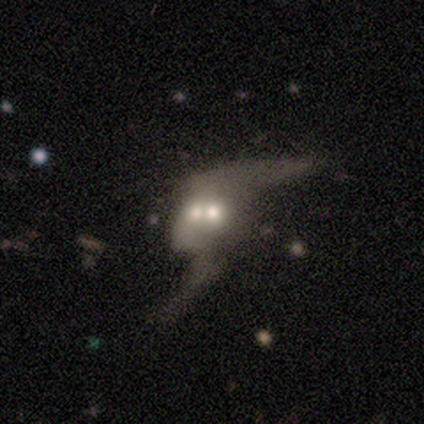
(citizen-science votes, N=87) Overall: featured or disk (67%; smooth 31%). Edge-on disk: no (95%). Bar: no (78%). Spiral arms: yes (55%; no 45%). Spiral arm count: 2 (87%). Spiral winding: loose (93%). Bulge size: moderate (55%; small 27%). Merging: merger (62%).